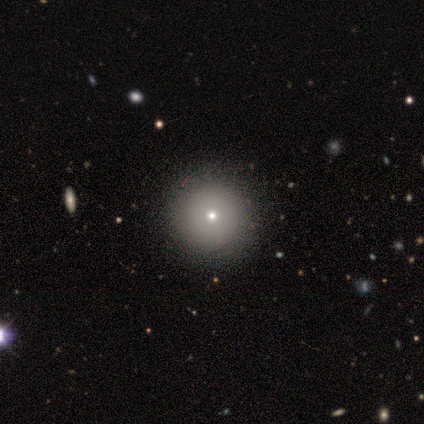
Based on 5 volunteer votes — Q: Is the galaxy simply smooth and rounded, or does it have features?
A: smooth — 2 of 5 (40%, tied with featured or disk).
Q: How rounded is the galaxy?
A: round — 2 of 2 (100%).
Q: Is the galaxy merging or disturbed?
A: none — 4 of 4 (100%).